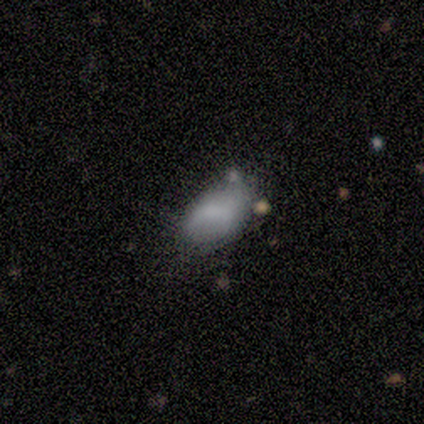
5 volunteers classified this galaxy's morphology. smooth 40% (tied), featured or disk 40% (tied), star or artifact 20%. Down the decision tree: how rounded — in between (50%, tied with cigar-shaped); merging — none (75%).